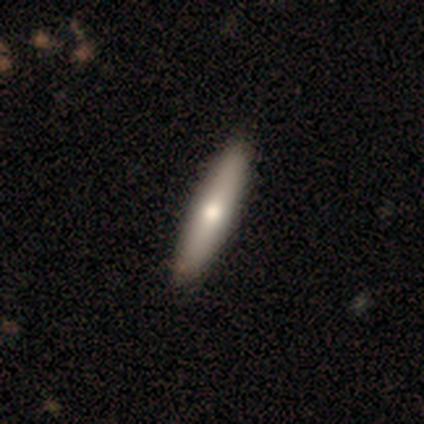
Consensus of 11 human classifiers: Overall: smooth (73%). How rounded: cigar-shaped (62%; in between 38%). Merging: none (91%).